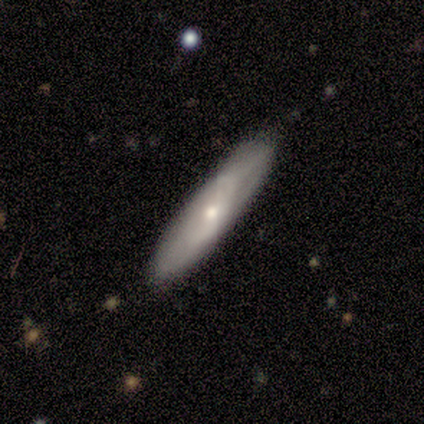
Smooth or featured?
  - smooth: 60% *
  - featured or disk: 40%
  - star or artifact: 0%
How rounded?
  - cigar-shaped: 100% *
  - round: 0%
  - in between: 0%
Merging?
  - none: 60% *
  - minor disturbance: 40%
  - major disturbance: 0%
  - merger: 0%